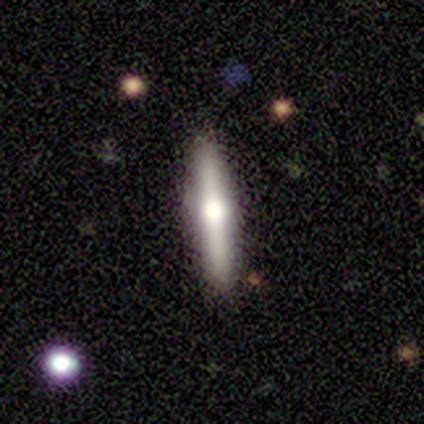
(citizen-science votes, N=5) Smooth or featured?
  - featured or disk: 80% *
  - smooth: 20%
  - star or artifact: 0%
Edge-on disk?
  - yes: 100% *
  - no: 0%
Edge-on bulge?
  - rounded: 100% *
  - boxy: 0%
  - none: 0%
Merging?
  - none: 100% *
  - minor disturbance: 0%
  - major disturbance: 0%
  - merger: 0%